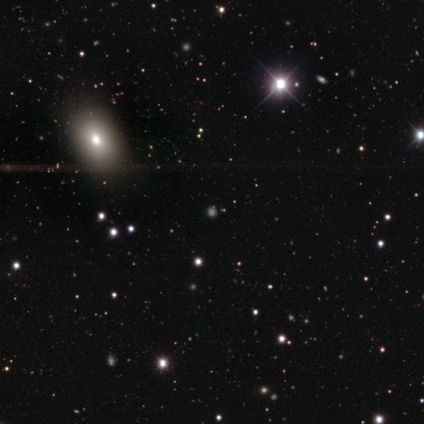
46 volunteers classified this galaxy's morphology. A smooth galaxy with no disk features (57%) that is round (73%). Merging: none (82%).